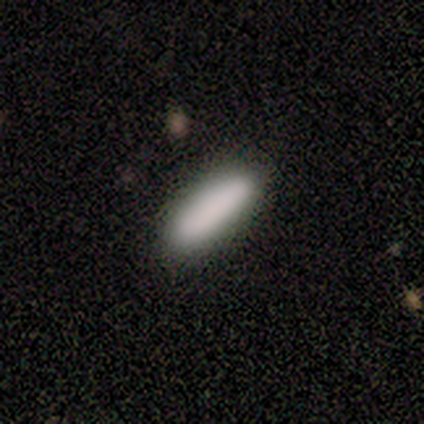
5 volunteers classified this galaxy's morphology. Smooth or featured?
  - smooth: 100% *
  - featured or disk: 0%
  - star or artifact: 0%
How rounded?
  - cigar-shaped: 60% *
  - in between: 40%
  - round: 0%
Merging?
  - none: 100% *
  - minor disturbance: 0%
  - major disturbance: 0%
  - merger: 0%